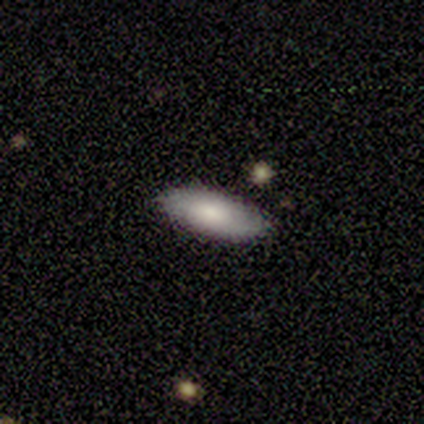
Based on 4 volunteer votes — Smooth or featured? 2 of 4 (50%, tied with featured or disk) said smooth. How rounded? 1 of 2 (50%, tied with cigar-shaped) said round. Merging? 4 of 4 (100%) said none.